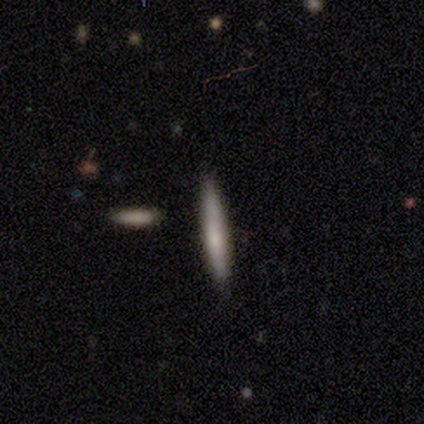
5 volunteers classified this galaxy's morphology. Smooth or featured: smooth — 100%
How rounded: cigar-shaped — 100%
Merging: none — 100%